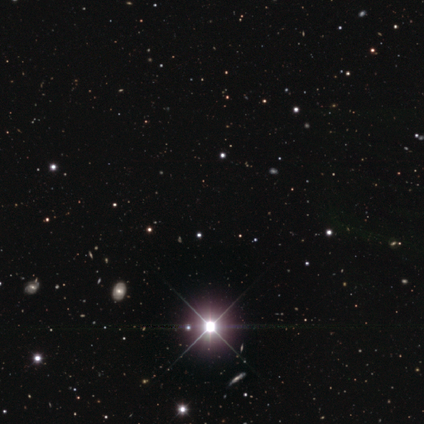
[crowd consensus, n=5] smooth-or-featured: star or artifact: 80% | smooth: 20% | featured or disk: 0%